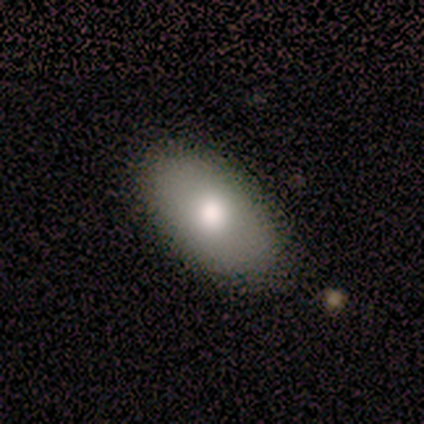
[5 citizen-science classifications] Volunteers were most divided on "bulge size" (3-way tie): large: 33%, moderate: 33%, none: 33%, dominant: 0%, small: 0%. More confident: edge-on disk — no (100%); spiral arms — no (100%); merging — none (80%); bar — no (67%); smooth or featured — featured or disk (60%).